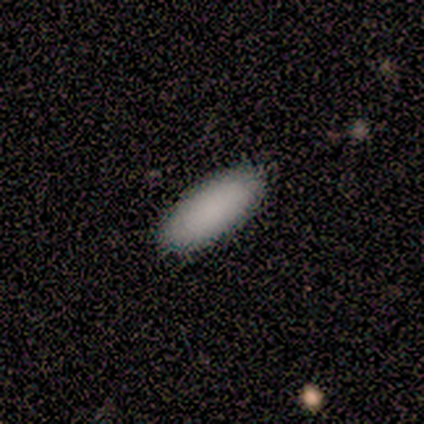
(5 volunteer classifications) Smooth or featured? smooth (100%)
How rounded? in between (80%)
Merging? none (80%)